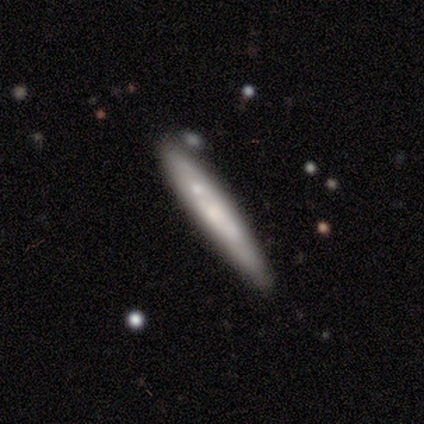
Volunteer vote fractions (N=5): smooth_or_featured: smooth (p=0.40) [tied with: featured or disk p=0.40]
how_rounded: cigar-shaped (p=1.00)
merging: none (p=0.50) [alt: minor disturbance p=0.25]